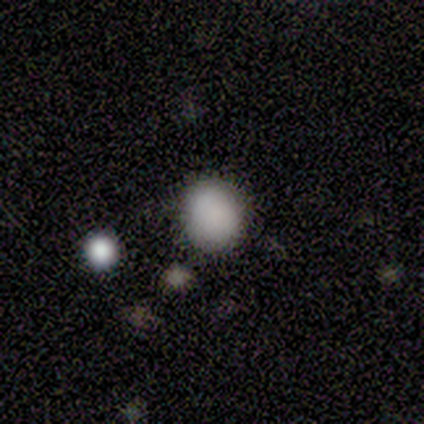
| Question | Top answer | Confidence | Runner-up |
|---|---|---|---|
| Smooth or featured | smooth | 93% | star or artifact (5%) |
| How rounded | round | 57% | in between (42%) |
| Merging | none | 80% | minor disturbance (17%) |